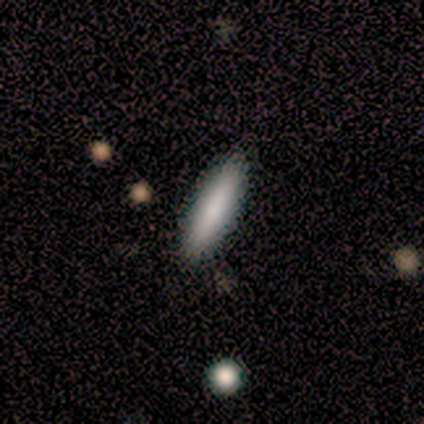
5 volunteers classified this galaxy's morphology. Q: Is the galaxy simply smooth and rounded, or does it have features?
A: smooth — 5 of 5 (100%).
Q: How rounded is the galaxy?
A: cigar-shaped — 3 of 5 (60%).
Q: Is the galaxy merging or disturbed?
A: none — 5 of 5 (100%).